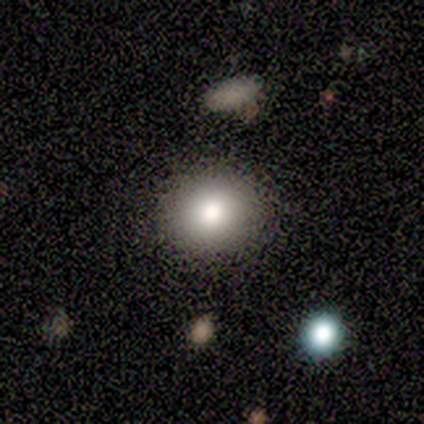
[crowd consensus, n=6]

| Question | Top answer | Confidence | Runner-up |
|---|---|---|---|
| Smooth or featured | smooth | 67% | star or artifact (33%) |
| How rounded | round | 50% | tied: in between (50%) |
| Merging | none | 50% | minor disturbance (25%) |